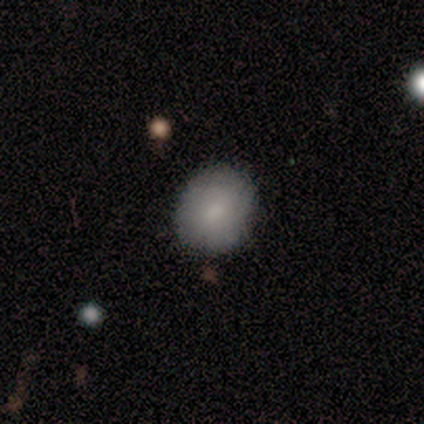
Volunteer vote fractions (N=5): smooth-or-featured: smooth: 60% | featured or disk: 40% | star or artifact: 0%
  how-rounded: in between: 67% | round: 33% | cigar-shaped: 0%
  merging: none: 60% | minor disturbance: 40% | major disturbance: 0% | merger: 0%